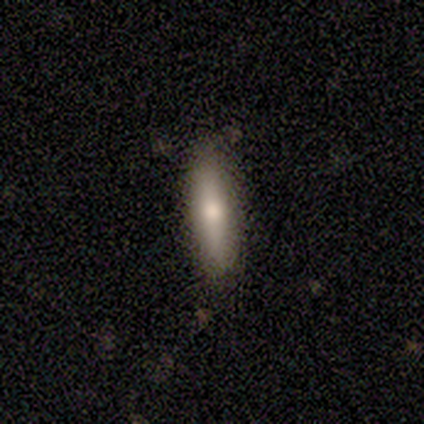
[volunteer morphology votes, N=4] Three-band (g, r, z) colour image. It shows a featured or disk galaxy (75%) viewed edge-on (100%) with a rounded central bulge (67%). Merging: none (75%).